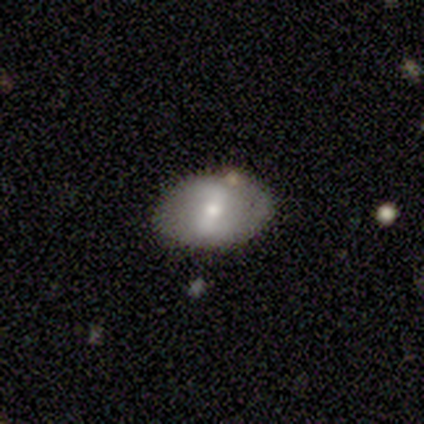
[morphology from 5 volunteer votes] smooth-or-featured: featured or disk: 80% | smooth: 20% | star or artifact: 0%
  disk-edge-on: no: 100% | yes: 0%
    bar: strong: 50% (tied) | weak: 50% (tied) | no: 0%
    has-spiral-arms: yes: 75% | no: 25%
      spiral-winding: tight: 67% | medium: 33% | loose: 0%
      spiral-arm-count: 2: 67% | can't tell: 33% | 1: 0% | 3: 0% | 4: 0% | more than 4: 0%
    bulge-size: moderate: 50% (tied) | small: 50% (tied) | dominant: 0% | large: 0% | none: 0%
  merging: none: 80% | minor disturbance: 20% | major disturbance: 0% | merger: 0%